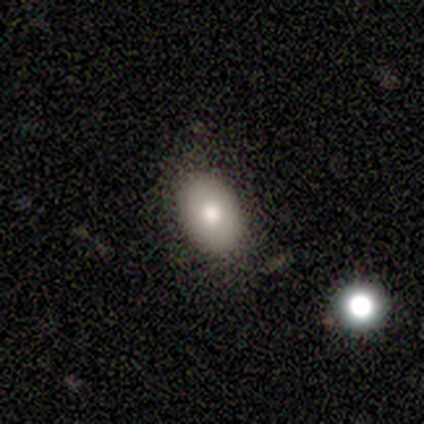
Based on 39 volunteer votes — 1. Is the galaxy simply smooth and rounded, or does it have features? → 77% smooth, 13% star or artifact, 10% featured or disk.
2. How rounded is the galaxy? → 90% in between, 10% round, 0% cigar-shaped.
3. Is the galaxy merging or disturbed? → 79% none, 12% minor disturbance, 6% merger, 3% major disturbance.